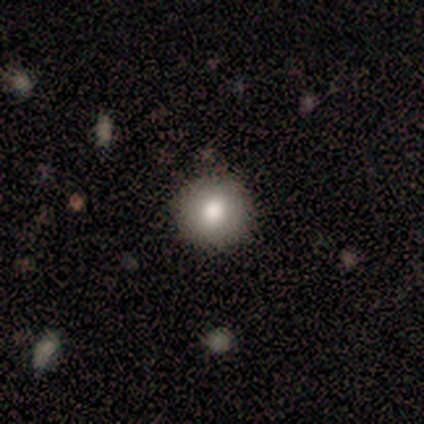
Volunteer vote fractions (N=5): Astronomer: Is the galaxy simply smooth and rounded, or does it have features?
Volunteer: smooth — 100%.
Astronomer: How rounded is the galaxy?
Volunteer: round — 100%.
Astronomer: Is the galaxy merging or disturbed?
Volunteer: none — 100%.